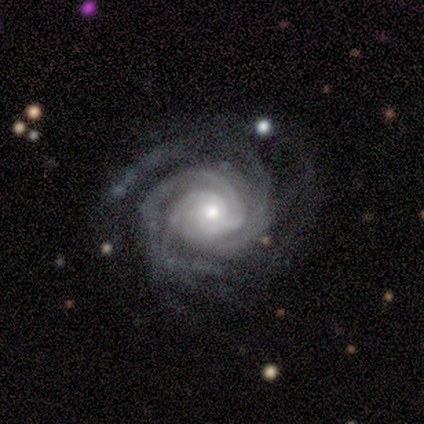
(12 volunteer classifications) Smooth or featured? featured or disk (92%)
Edge-on disk? no (91%)
Bar? no (80%)
Spiral arms? yes (100%)
Spiral winding? tight (80%)
Spiral arm count? 2 (30%)
Bulge size? moderate (50%)
Merging? none (91%)